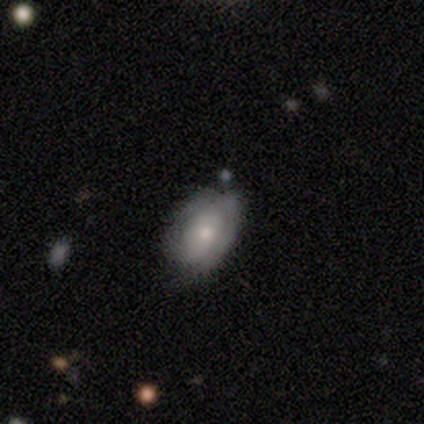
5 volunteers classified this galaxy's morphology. smooth_or_featured: featured or disk (p=0.60) [alt: smooth p=0.40]
disk_edge_on: no (p=1.00)
bar: no (p=1.00)
has_spiral_arms: yes (p=0.67) [alt: no p=0.33]
spiral_winding: tight (p=1.00)
spiral_arm_count: 1 (p=0.50) [tied with: can't tell p=0.50]
bulge_size: moderate (p=0.67) [alt: large p=0.33]
merging: minor disturbance (p=0.60) [alt: none p=0.40]